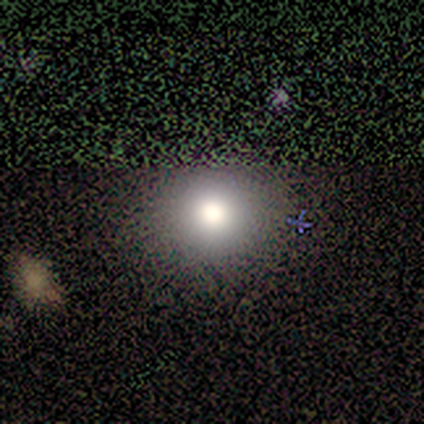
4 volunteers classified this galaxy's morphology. type=smooth (50%); roundness=round (100%); merging=none (67%).